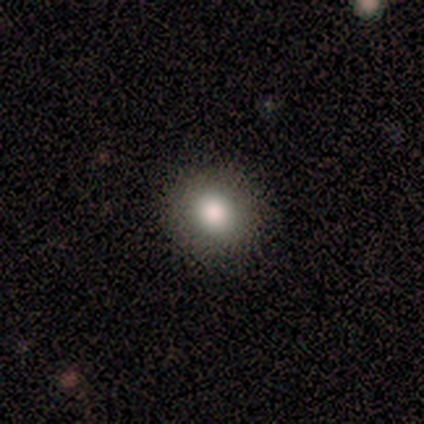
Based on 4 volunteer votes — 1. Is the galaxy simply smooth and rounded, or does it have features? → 100% smooth, 0% featured or disk, 0% star or artifact.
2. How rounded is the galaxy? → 75% round, 25% in between, 0% cigar-shaped.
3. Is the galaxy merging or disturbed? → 75% none, 25% minor disturbance, 0% major disturbance, 0% merger.